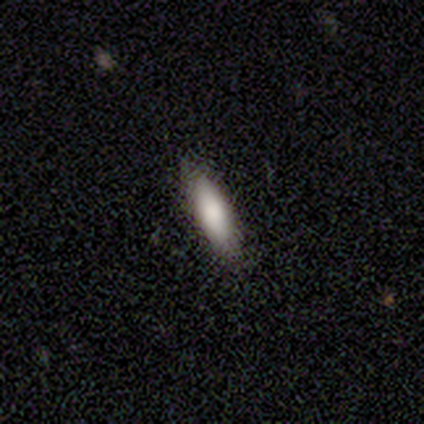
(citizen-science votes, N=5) Smooth or featured: smooth — 100%
How rounded: in between — 60% (cigar-shaped — 40%)
Merging: none — 80% (minor disturbance — 20%)